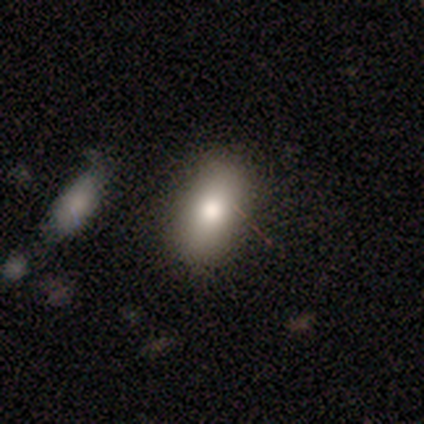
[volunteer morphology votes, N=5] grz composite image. It shows a smooth galaxy with no disk features (60%) that is in between round and cigar-shaped (100%). Merging: none (60%).